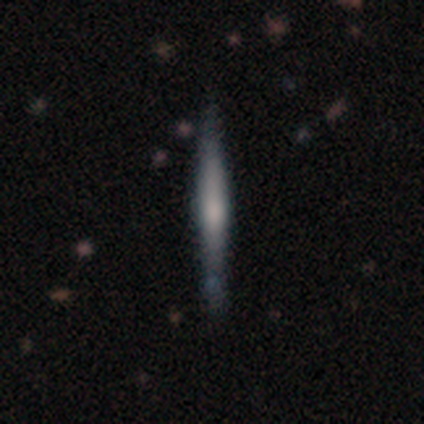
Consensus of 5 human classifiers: A featured or disk galaxy (80%) viewed edge-on (100%) with no central bulge (50%, tied with rounded).

Vote fractions:
- Smooth or featured? featured or disk: 80% / smooth: 20% / star or artifact: 0%
- Edge-on disk? yes: 100% / no: 0%
- Edge-on bulge? none: 50% (tied) / rounded: 50% (tied) / boxy: 0%
- Merging? none: 80% / minor disturbance: 20% / major disturbance: 0% / merger: 0%